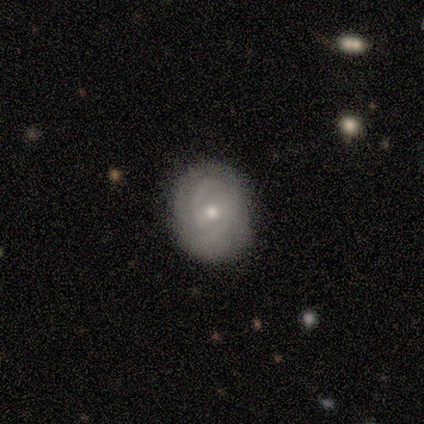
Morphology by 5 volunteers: smooth 40% (tied), featured or disk 40% (tied), star or artifact 20%. Down the decision tree: how rounded — round (100%); merging — none (100%).